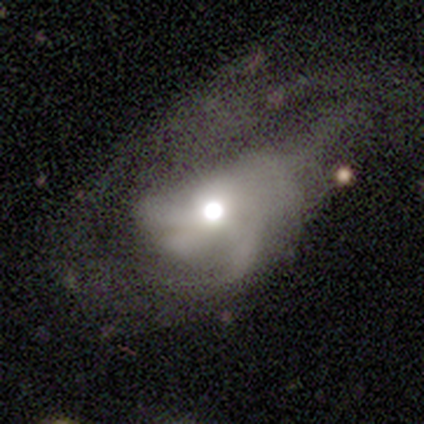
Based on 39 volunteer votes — smooth-or-featured: featured or disk: 67% | star or artifact: 18% | smooth: 15%
  disk-edge-on: no: 96% | yes: 4%
    bar: no: 96% | weak: 4% | strong: 0%
    has-spiral-arms: yes: 64% | no: 36%
      spiral-winding: medium: 50% | loose: 44% | tight: 6%
      spiral-arm-count: can't tell: 44% | 3: 25% | 2: 12% | more than 4: 12% | 1: 6% | 4: 0%
    bulge-size: moderate: 64% | large: 16% | dominant: 8% | small: 8% | none: 4%
  merging: major disturbance: 75% | none: 12% | minor disturbance: 9% | merger: 3%